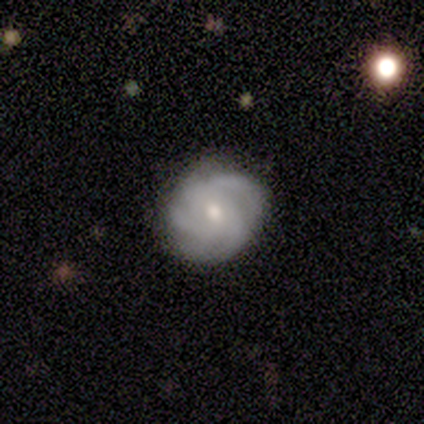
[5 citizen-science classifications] Q: Smooth or featured?
A: featured or disk (80%); runner-up: smooth (20%)
Q: Edge-on disk?
A: no (100%)
Q: Bar?
A: weak (75%); runner-up: no (25%)
Q: Spiral arms?
A: yes (75%); runner-up: no (25%)
Q: Spiral winding?
A: medium (67%); runner-up: tight (33%)
Q: Spiral arm count?
A: 2 (33%); tied with: 3 (33%); more than 4 (33%)
Q: Bulge size?
A: moderate (75%); runner-up: small (25%)
Q: Merging?
A: none (60%); runner-up: minor disturbance (20%)